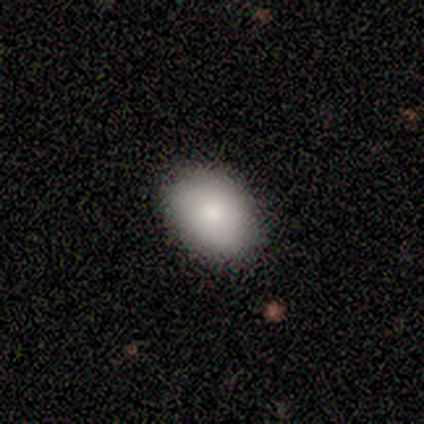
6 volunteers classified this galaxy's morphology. smooth-or-featured: smooth: 83% | featured or disk: 17% | star or artifact: 0%
  how-rounded: in between: 60% | round: 40% | cigar-shaped: 0%
  merging: none: 100% | minor disturbance: 0% | major disturbance: 0% | merger: 0%